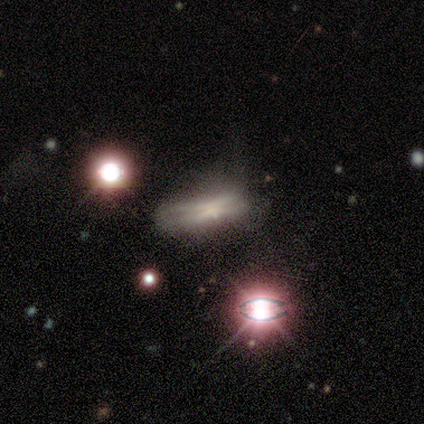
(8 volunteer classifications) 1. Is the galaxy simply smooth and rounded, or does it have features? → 50% smooth (tied), 50% featured or disk (tied), 0% star or artifact.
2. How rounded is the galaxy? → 100% cigar-shaped, 0% round, 0% in between.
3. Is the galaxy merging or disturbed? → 62% none, 25% major disturbance, 12% minor disturbance, 0% merger.